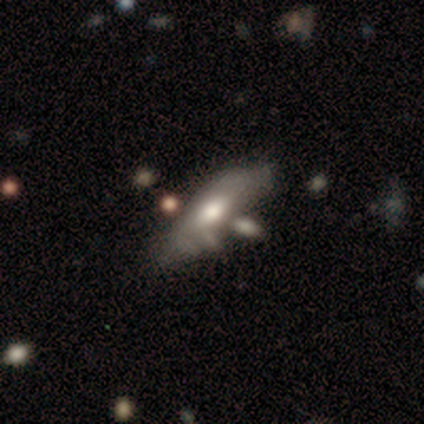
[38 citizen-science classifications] This appears to be a smooth galaxy with no disk features (50%) that is in between round and cigar-shaped (74%). Merging: none (46%).